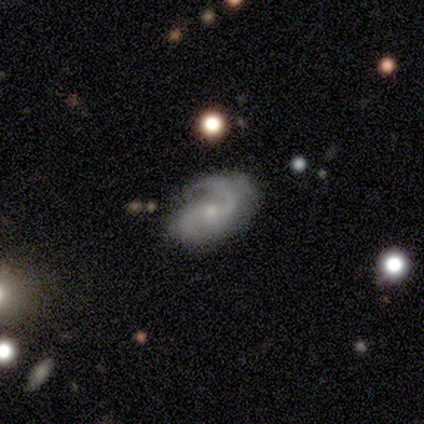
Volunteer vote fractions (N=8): smooth-or-featured: featured or disk: 100% | smooth: 0% | star or artifact: 0%
  disk-edge-on: no: 100% | yes: 0%
    bar: no: 62% | weak: 38% | strong: 0%
    has-spiral-arms: yes: 100% | no: 0%
      spiral-winding: tight: 38% (tied) | medium: 38% (tied) | loose: 25%
      spiral-arm-count: 2: 88% | 1: 12% | 3: 0% | 4: 0% | more than 4: 0% | can't tell: 0%
    bulge-size: small: 62% | moderate: 25% | none: 12% | dominant: 0% | large: 0%
  merging: none: 75% | minor disturbance: 12% | merger: 12% | major disturbance: 0%